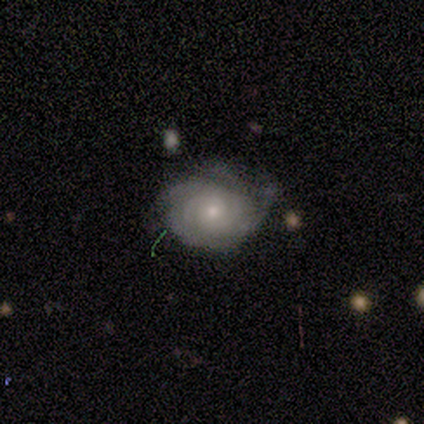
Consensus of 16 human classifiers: Volunteers were most divided on "spiral arm count": 4: 36%, can't tell: 27%, 2: 18%, 3: 18%, 1: 0%, more than 4: 0%. More confident: edge-on disk — no (100%); bar — no (85%); spiral arms — yes (85%); smooth or featured — featured or disk (81%); bulge size — moderate (69%); spiral winding — tight (64%); merging — none (60%).